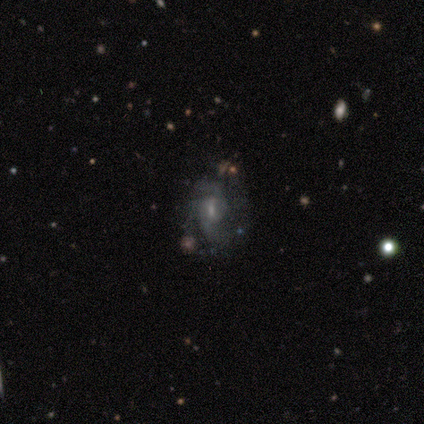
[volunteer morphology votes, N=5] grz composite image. It shows a featured or disk galaxy (100%) with a weak bar (60%), 2 (60%) medium (60%) spiral arms (100%) and a small central bulge (60%). Merging: none (60%).